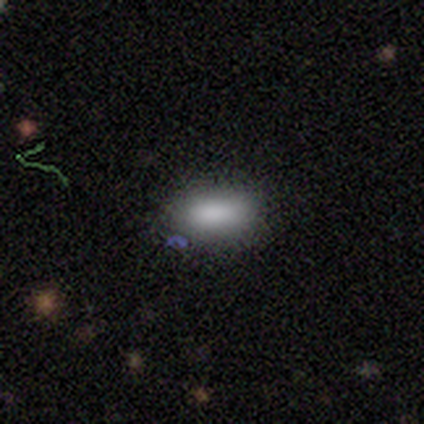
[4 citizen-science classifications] smooth-or-featured: smooth: 100% | featured or disk: 0% | star or artifact: 0%
  how-rounded: in between: 100% | round: 0% | cigar-shaped: 0%
  merging: minor disturbance: 75% | none: 25% | major disturbance: 0% | merger: 0%